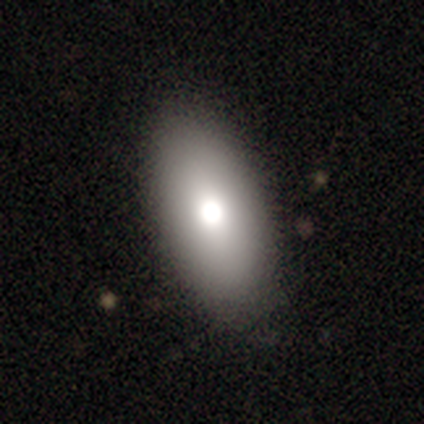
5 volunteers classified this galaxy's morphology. smooth 100%, featured or disk 0%, star or artifact 0%. Down the decision tree: how rounded — in between (100%); merging — none (100%).